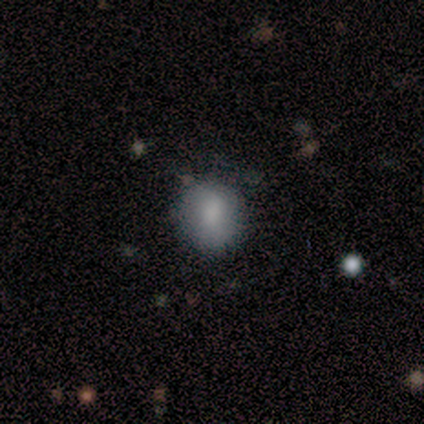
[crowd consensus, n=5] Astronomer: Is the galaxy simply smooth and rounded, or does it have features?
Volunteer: smooth — 100%.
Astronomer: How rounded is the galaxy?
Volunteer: round — 100%.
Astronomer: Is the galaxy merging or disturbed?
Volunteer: none — 80%.